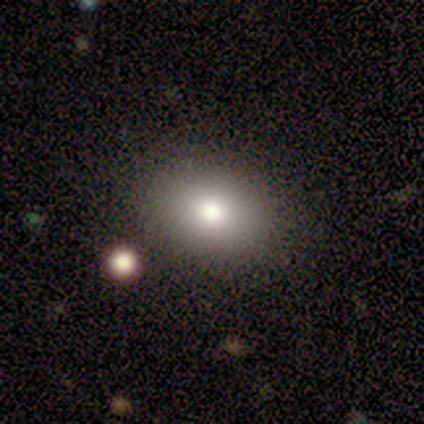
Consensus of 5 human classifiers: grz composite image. It shows a smooth galaxy with no disk features (100%) that is in between round and cigar-shaped (60%). Merging: none (100%).